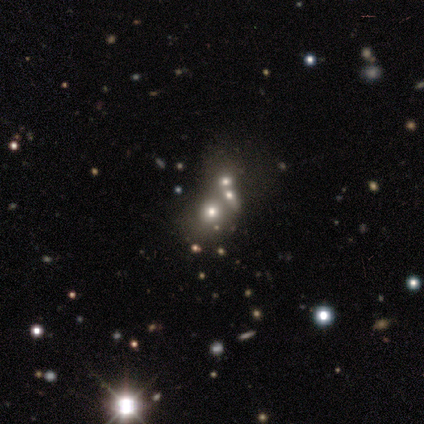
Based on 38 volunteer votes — star or artifact 53%, smooth 34%, featured or disk 13%.